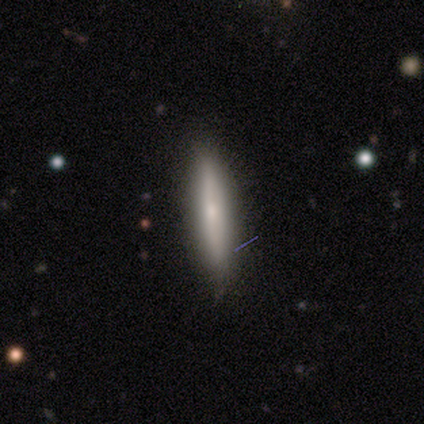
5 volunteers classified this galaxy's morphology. smooth 80%, featured or disk 20%, star or artifact 0%. Down the decision tree: how rounded — cigar-shaped (100%); merging — none (80%).